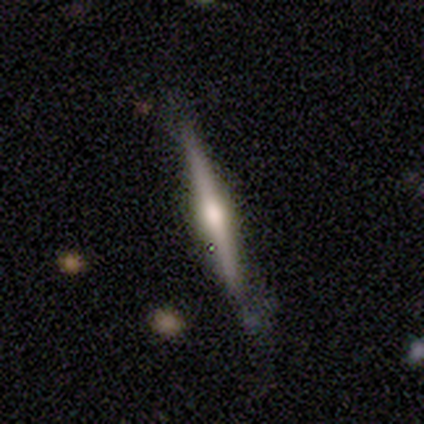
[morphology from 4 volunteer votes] Smooth or featured?
  - smooth: 50% * (tied)
  - featured or disk: 50% * (tied)
  - star or artifact: 0%
How rounded?
  - cigar-shaped: 100% *
  - round: 0%
  - in between: 0%
Merging?
  - none: 75% *
  - minor disturbance: 25%
  - major disturbance: 0%
  - merger: 0%